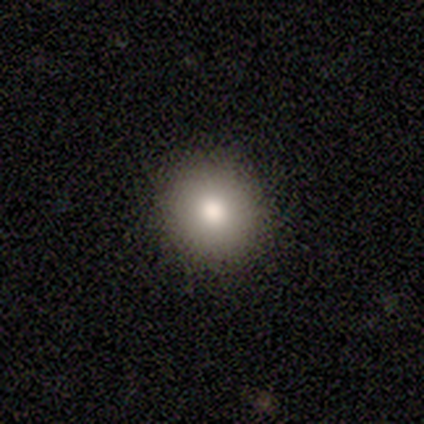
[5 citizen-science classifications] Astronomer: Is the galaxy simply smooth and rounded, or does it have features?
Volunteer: smooth — 60%.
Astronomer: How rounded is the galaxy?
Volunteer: round — 100%.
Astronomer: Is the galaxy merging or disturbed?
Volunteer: none — 100%.